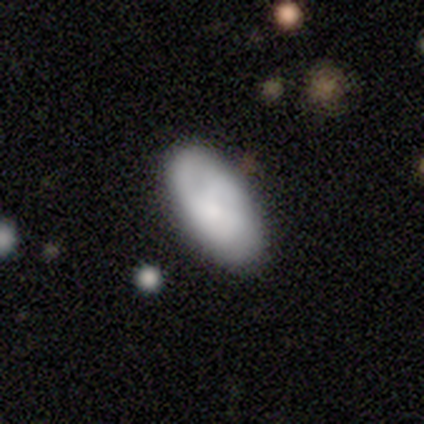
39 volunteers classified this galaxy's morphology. Smooth or featured: smooth — 64% (featured or disk — 26%)
How rounded: in between — 96% (round — 4%)
Merging: none — 83% (minor disturbance — 11%)